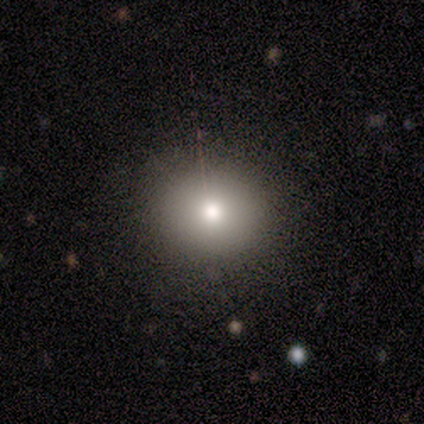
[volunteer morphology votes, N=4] smooth 100%, featured or disk 0%, star or artifact 0%. Down the decision tree: how rounded — round (50%, tied with in between); merging — none (75%).